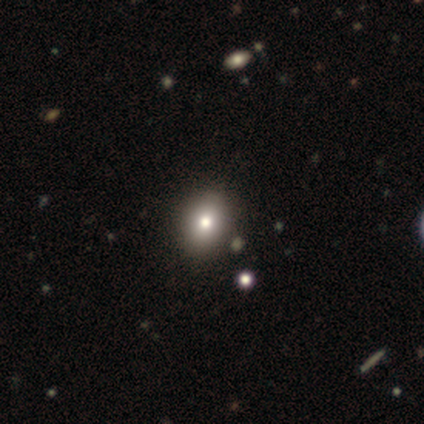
Morphology: type=smooth (100%); roundness=round (60%); merging=none (100%).